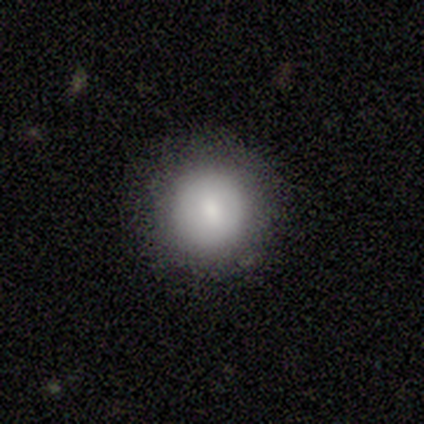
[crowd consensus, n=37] Smooth or featured? 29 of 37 (78%) said smooth. How rounded? 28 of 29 (97%) said round. Merging? 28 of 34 (82%) said none.